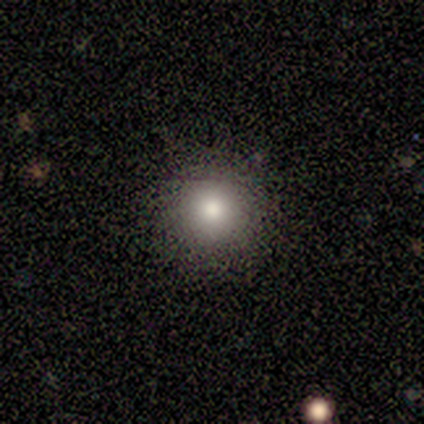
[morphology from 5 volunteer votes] smooth_or_featured: smooth (p=1.00)
how_rounded: round (p=1.00)
merging: none (p=0.80) [alt: minor disturbance p=0.20]